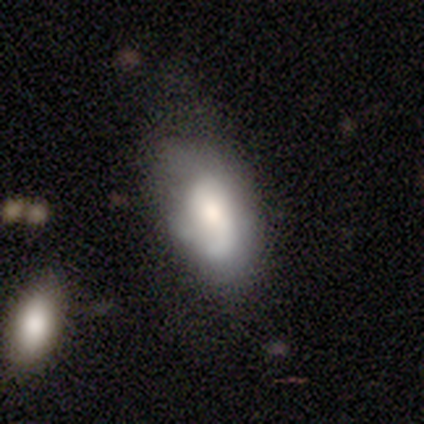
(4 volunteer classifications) Smooth or featured: smooth — 50% (tied with featured or disk — 50%)
How rounded: in between — 100%
Merging: major disturbance — 50% (none — 25%)